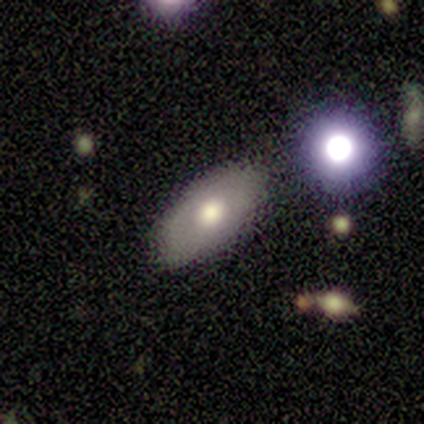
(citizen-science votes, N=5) Morphology: type=smooth (60%); roundness=in between (100%); merging=none (80%).